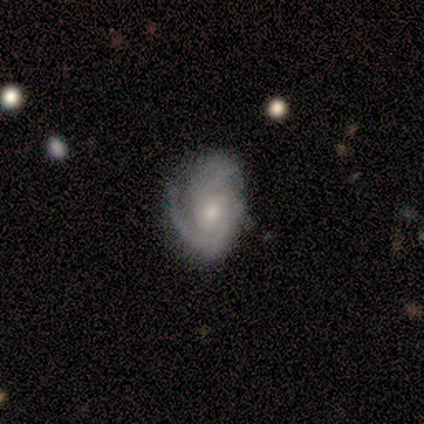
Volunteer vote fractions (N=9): Q: Smooth or featured?
A: featured or disk (78%); runner-up: smooth (22%)
Q: Edge-on disk?
A: no (100%)
Q: Bar?
A: no (100%)
Q: Spiral arms?
A: yes (100%)
Q: Spiral winding?
A: medium (43%); runner-up: tight (29%)
Q: Spiral arm count?
A: 2 (57%); runner-up: 1 (29%)
Q: Bulge size?
A: small (86%); runner-up: large (14%)
Q: Merging?
A: minor disturbance (44%); runner-up: none (33%)